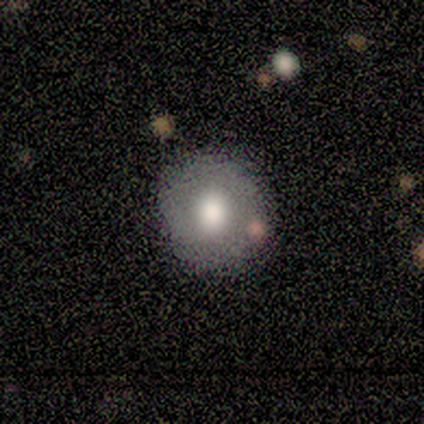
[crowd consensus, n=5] smooth 80%, featured or disk 20%, star or artifact 0%. Down the decision tree: how rounded — round (50%, tied with in between); merging — none (80%).